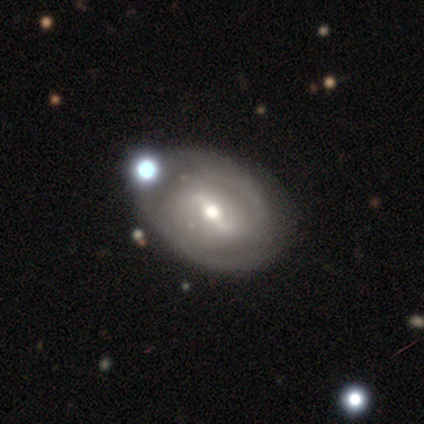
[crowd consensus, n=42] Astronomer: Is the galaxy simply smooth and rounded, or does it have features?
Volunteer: featured or disk — 76%.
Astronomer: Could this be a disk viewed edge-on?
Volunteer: no — 94%.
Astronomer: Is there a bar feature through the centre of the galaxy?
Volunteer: weak — 57% (runner-up: strong, 37%).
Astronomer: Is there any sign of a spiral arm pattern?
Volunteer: yes — 67%.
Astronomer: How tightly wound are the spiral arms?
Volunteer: tight — 60%.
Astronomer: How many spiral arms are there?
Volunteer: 2 — 85%.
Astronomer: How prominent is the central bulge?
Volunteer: moderate — 70%.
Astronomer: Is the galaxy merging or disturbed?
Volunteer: none — 54% (runner-up: minor disturbance, 29%).